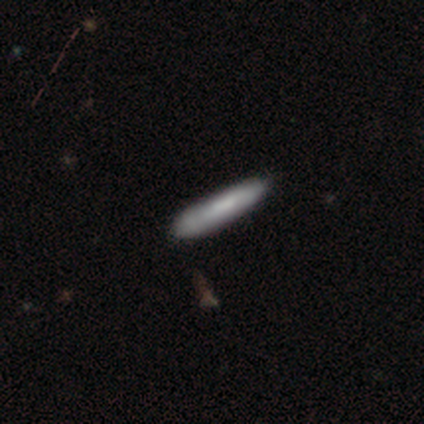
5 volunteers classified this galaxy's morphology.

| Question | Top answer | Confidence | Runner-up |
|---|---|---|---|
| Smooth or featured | smooth | 100% | — |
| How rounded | cigar-shaped | 80% | in between (20%) |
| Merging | none | 60% | minor disturbance (40%) |